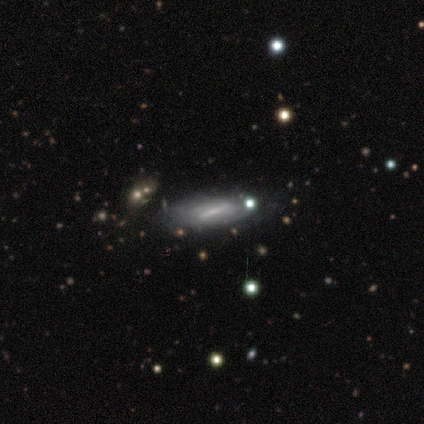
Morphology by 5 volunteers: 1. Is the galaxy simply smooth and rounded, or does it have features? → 60% smooth, 40% featured or disk, 0% star or artifact.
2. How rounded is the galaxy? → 67% in between, 33% cigar-shaped, 0% round.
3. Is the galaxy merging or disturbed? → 40% none (tied), 40% minor disturbance (tied), 20% merger, 0% major disturbance.